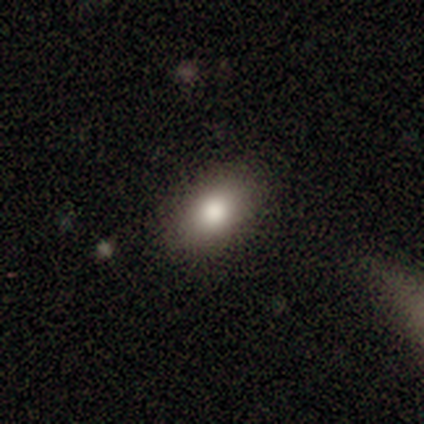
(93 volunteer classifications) smooth-or-featured: smooth: 85% | featured or disk: 10% | star or artifact: 5%
  how-rounded: in between: 87% | round: 11% | cigar-shaped: 1%
  merging: none: 83% | minor disturbance: 12% | major disturbance: 3% | merger: 1%